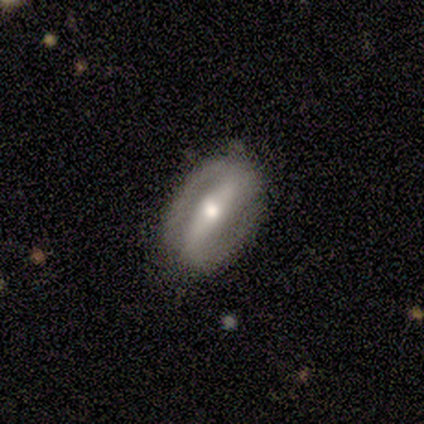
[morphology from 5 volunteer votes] Smooth or featured?
  - featured or disk: 80% *
  - smooth: 20%
  - star or artifact: 0%
Edge-on disk?
  - no: 100% *
  - yes: 0%
Bar?
  - strong: 100% *
  - weak: 0%
  - no: 0%
Spiral arms?
  - yes: 75% *
  - no: 25%
Spiral winding?
  - medium: 100% *
  - tight: 0%
  - loose: 0%
Spiral arm count?
  - 2: 100% *
  - 1: 0%
  - 3: 0%
  - 4: 0%
  - more than 4: 0%
  - can't tell: 0%
Bulge size?
  - moderate: 50% *
  - large: 25%
  - small: 25%
  - dominant: 0%
  - none: 0%
Merging?
  - none: 100% *
  - minor disturbance: 0%
  - major disturbance: 0%
  - merger: 0%